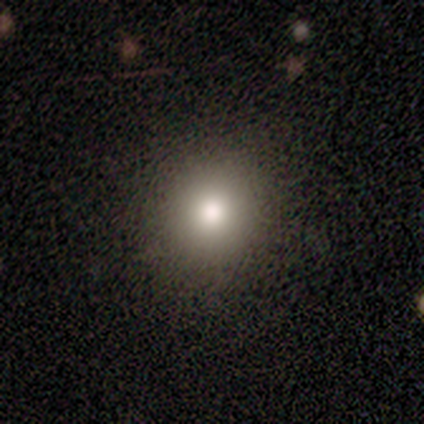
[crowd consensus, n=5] Overall: smooth (100%). How rounded: round (100%). Merging: none (80%).